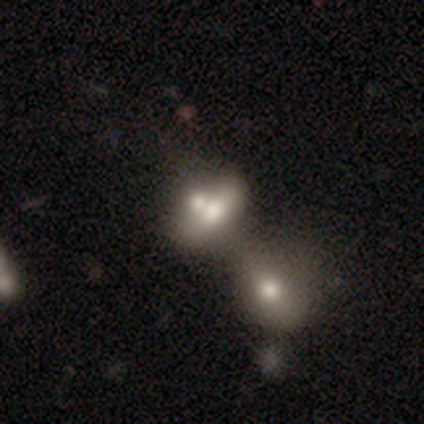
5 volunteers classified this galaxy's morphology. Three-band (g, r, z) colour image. It shows a smooth galaxy with no disk features (60%) that is in between round and cigar-shaped (67%). Merging: merger (75%).